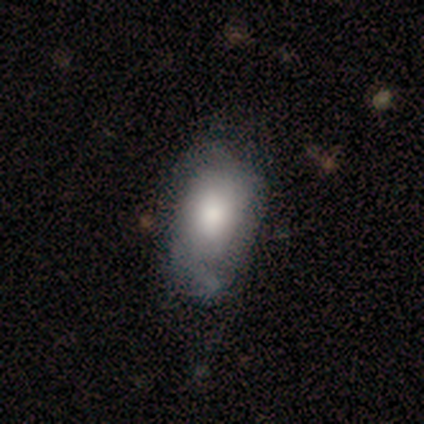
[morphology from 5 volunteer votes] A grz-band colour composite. It shows a smooth galaxy with no disk features (60%) that is in between round and cigar-shaped (100%). Merging: none (60%).